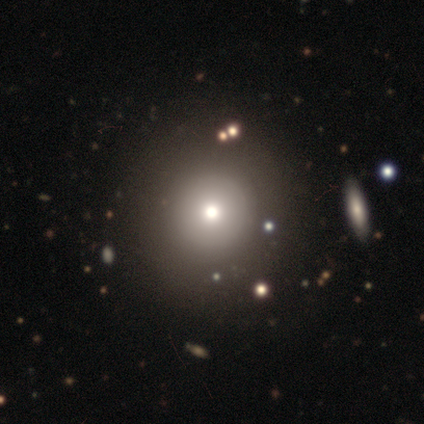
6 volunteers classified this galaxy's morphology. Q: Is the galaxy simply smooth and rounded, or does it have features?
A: smooth — 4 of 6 (67%).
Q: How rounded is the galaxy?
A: round — 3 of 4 (75%).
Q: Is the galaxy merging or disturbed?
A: none — 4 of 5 (80%).